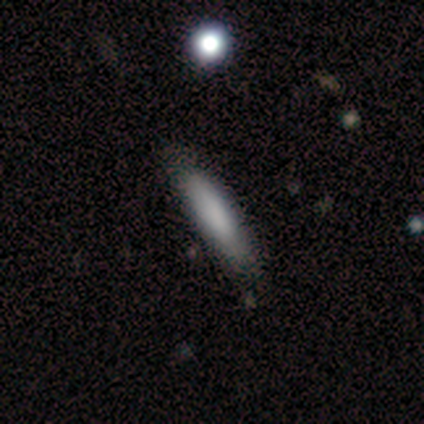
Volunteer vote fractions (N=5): Morphology: type=smooth (80%); roundness=cigar-shaped (100%); merging=none (80%).